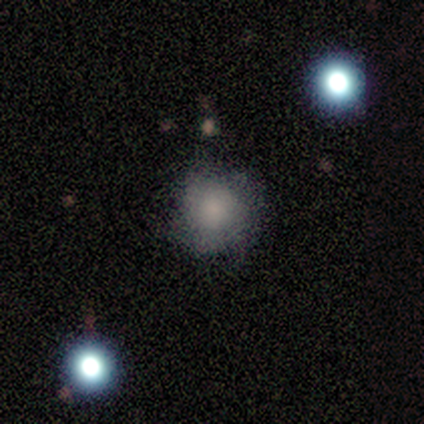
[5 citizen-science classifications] smooth 80%, featured or disk 20%, star or artifact 0%. Down the decision tree: how rounded — round (100%); merging — none (80%).